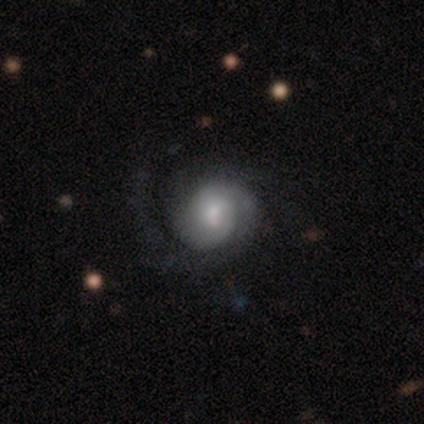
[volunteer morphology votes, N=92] This appears to be a featured or disk galaxy (87%) with no bar (75%), 2 (57%) tight (47%) spiral arms (96%) and a moderate central bulge (51%). Merging: none (71%).